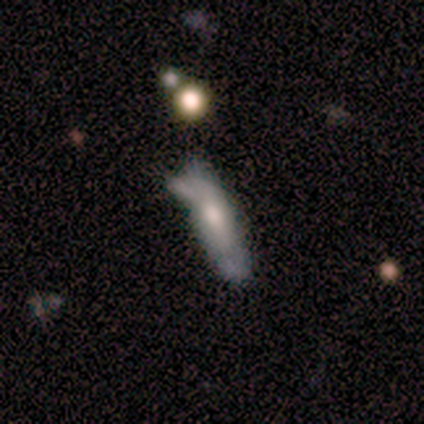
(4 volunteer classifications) Volunteers were most divided on "smooth or featured" (2-way tie): featured or disk: 50%, star or artifact: 50%, smooth: 0%; "edge-on disk" (2-way tie): yes: 50%, no: 50%; "merging" (2-way tie): minor disturbance: 50%, merger: 50%, none: 0%, major disturbance: 0%. More confident: edge-on bulge — rounded (100%).